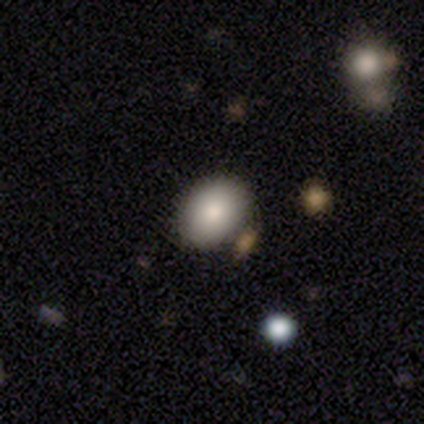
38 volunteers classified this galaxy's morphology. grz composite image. It shows a smooth galaxy with no disk features (79%) that is round (50%, tied with in between). Merging: none (71%).